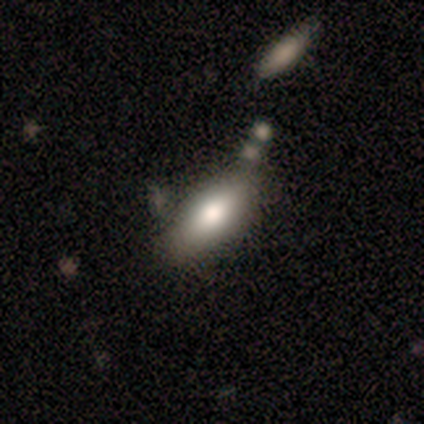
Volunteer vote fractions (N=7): smooth 57%, star or artifact 29%, featured or disk 14%. Down the decision tree: how rounded — in between (100%); merging — none (60%).